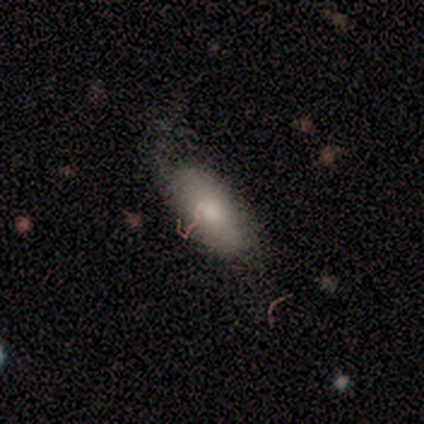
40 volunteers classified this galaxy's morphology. smooth_or_featured: smooth (p=0.75) [alt: featured or disk p=0.17]
how_rounded: in between (p=0.97) [alt: cigar-shaped p=0.03]
merging: none (p=0.30) [alt: minor disturbance p=0.24]